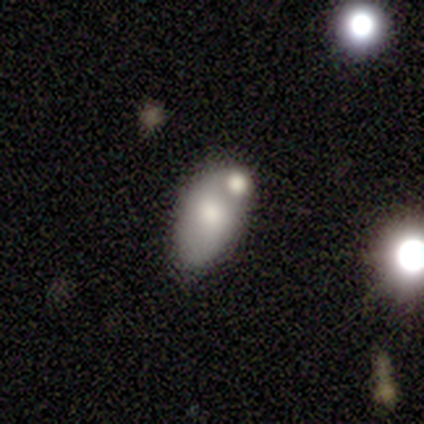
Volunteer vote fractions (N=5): Smooth or featured? smooth (80%)
How rounded? in between (100%)
Merging? minor disturbance (40%)